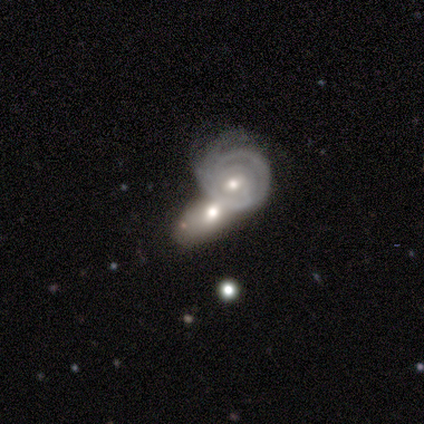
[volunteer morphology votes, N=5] A featured or disk galaxy (60%) with no bar (67%), 2 (33%, tied with 3 and can't tell) tight (100%) spiral arms (100%) and a small central bulge (67%). Merging: merger (100%).